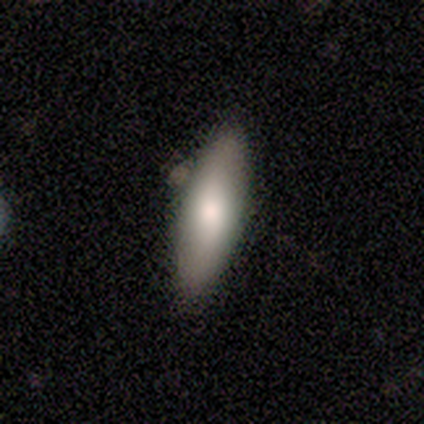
Q: Smooth or featured?
A: star or artifact (50%); runner-up: smooth (38%)